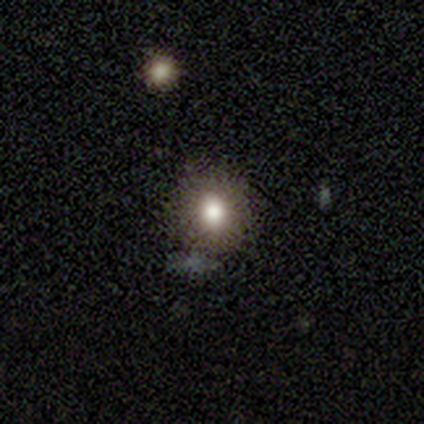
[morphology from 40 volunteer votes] Volunteers were most divided on "how rounded" (2-way tie): round: 50%, in between: 50%, cigar-shaped: 0%. More confident: merging — none (74%); smooth or featured — smooth (65%).